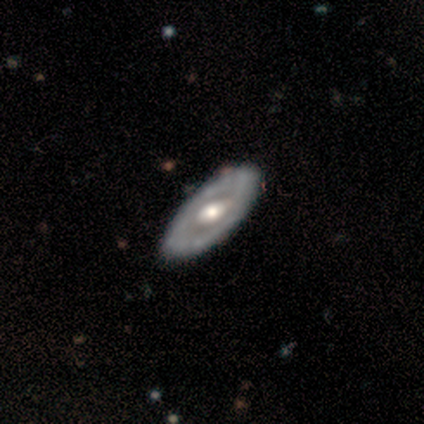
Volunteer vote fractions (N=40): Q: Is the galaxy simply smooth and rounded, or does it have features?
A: featured or disk — 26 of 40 (65%).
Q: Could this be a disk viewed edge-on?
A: no — 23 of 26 (88%).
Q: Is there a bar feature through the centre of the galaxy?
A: no — 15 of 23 (65%).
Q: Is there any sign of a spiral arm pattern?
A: no — 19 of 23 (83%).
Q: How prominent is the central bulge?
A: moderate — 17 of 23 (74%).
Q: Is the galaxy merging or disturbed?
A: none — 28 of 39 (72%).